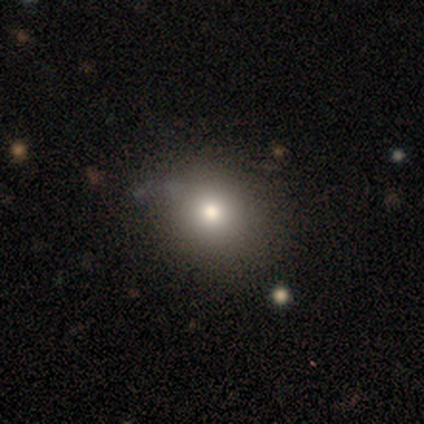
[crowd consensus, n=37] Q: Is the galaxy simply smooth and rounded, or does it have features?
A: smooth — 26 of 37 (70%).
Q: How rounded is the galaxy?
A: round — 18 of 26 (69%).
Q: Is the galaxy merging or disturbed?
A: none — 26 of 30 (87%).